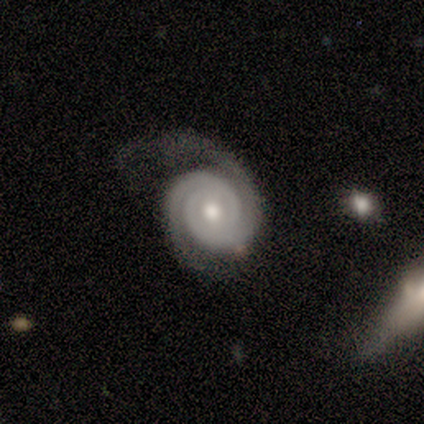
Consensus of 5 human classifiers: Smooth or featured? featured or disk (100%)
Edge-on disk? no (80%)
Bar? no (75%)
Spiral arms? yes (100%)
Spiral winding? tight (75%)
Spiral arm count? 2 (100%)
Bulge size? moderate (100%)
Merging? none (60%)